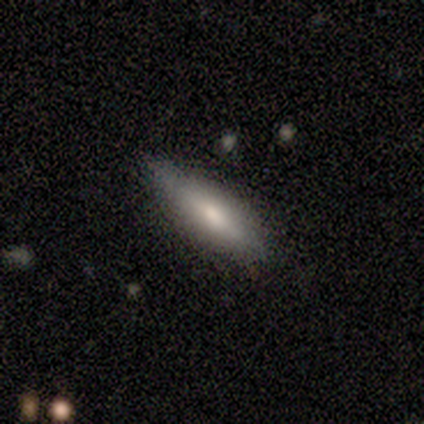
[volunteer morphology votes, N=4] A smooth galaxy with no disk features (75%) that is in between round and cigar-shaped (67%).

Vote fractions:
- Smooth or featured? smooth: 75% / featured or disk: 25% / star or artifact: 0%
- How rounded? in between: 67% / cigar-shaped: 33% / round: 0%
- Merging? none: 75% / minor disturbance: 25% / major disturbance: 0% / merger: 0%